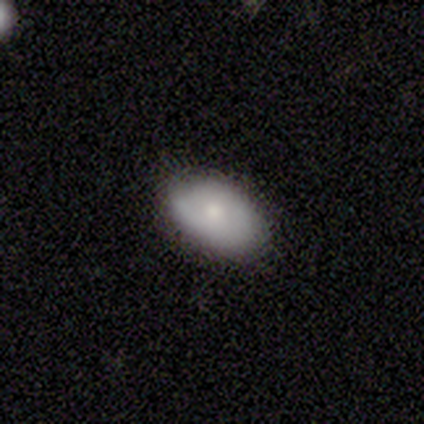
Smooth or featured? smooth (80%)
How rounded? in between (100%)
Merging? none (100%)